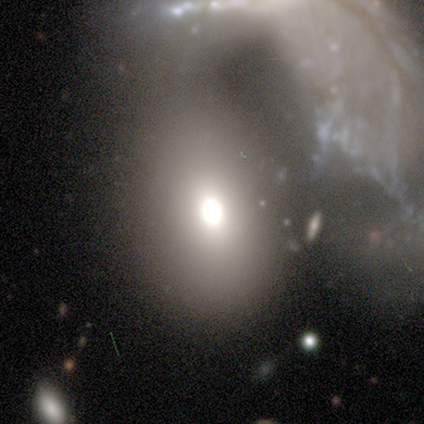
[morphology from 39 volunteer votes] Smooth or featured?
  - smooth: 67% *
  - featured or disk: 18%
  - star or artifact: 15%
How rounded?
  - in between: 69% *
  - round: 27%
  - cigar-shaped: 4%
Merging?
  - merger: 39% *
  - none: 33%
  - major disturbance: 18%
  - minor disturbance: 9%